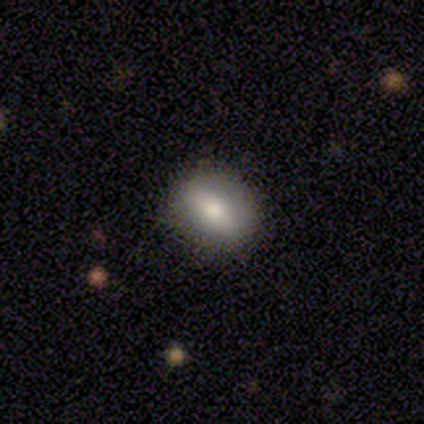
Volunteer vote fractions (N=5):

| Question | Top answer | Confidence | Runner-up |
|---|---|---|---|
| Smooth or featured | smooth | 60% | featured or disk (40%) |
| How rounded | in between | 67% | round (33%) |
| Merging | none | 80% | major disturbance (20%) |